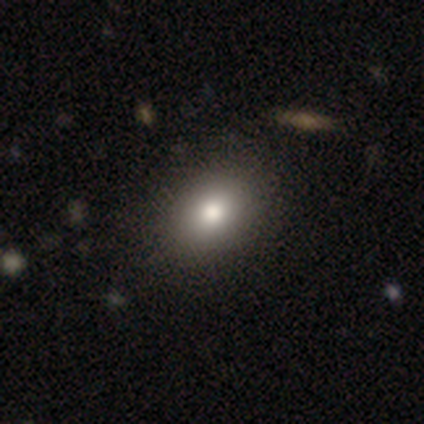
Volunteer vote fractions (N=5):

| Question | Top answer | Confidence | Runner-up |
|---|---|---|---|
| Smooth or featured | smooth | 80% | star or artifact (20%) |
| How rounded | in between | 75% | round (25%) |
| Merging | none | 50% | tied: minor disturbance (50%) |